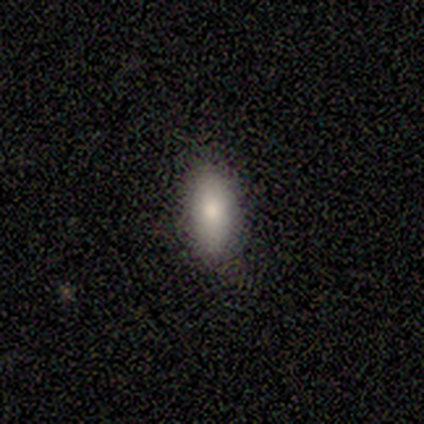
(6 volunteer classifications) Smooth or featured: smooth — 83% (featured or disk — 17%)
How rounded: in between — 80% (round — 20%)
Merging: none — 83% (minor disturbance — 17%)